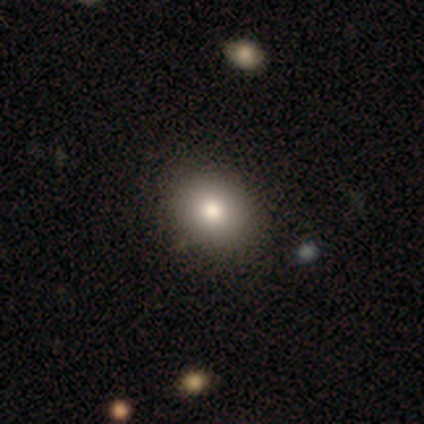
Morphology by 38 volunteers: type=smooth (92%); roundness=in between (51%); merging=none (69%).